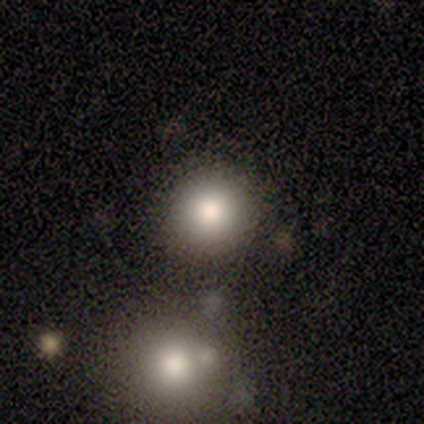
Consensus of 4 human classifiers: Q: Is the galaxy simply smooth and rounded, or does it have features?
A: smooth — 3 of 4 (75%).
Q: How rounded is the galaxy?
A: round — 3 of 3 (100%).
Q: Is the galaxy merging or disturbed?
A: none — 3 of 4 (75%).